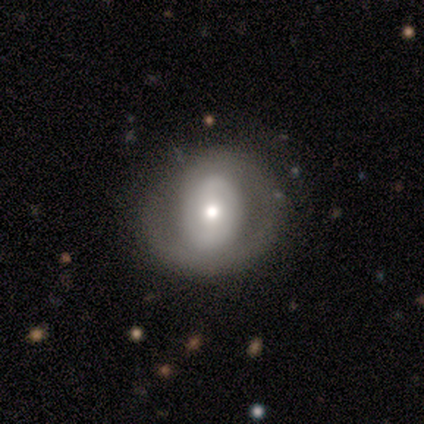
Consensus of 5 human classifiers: Smooth or featured: smooth — 60% (featured or disk — 40%)
How rounded: round — 67% (in between — 33%)
Merging: none — 80% (minor disturbance — 20%)